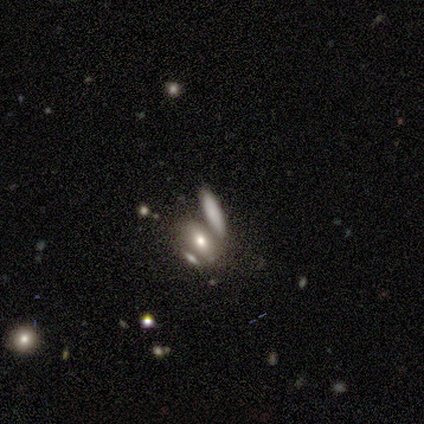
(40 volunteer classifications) Morphology: type=smooth (68%); roundness=in between (56%); merging=merger (46%).